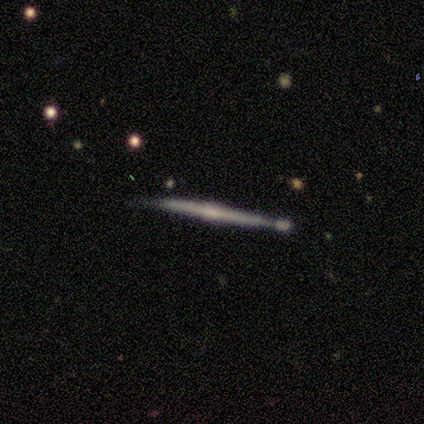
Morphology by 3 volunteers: Smooth or featured: featured or disk — 100%
Edge-on disk: yes — 100%
Edge-on bulge: rounded — 100%
Merging: none — 67% (merger — 33%)